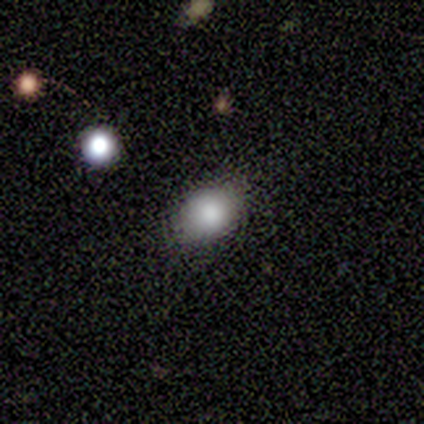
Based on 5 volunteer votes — A smooth galaxy with no disk features (80%) that is round (50%, tied with in between).

Vote fractions:
- Smooth or featured? smooth: 80% / star or artifact: 20% / featured or disk: 0%
- How rounded? round: 50% (tied) / in between: 50% (tied) / cigar-shaped: 0%
- Merging? none: 100% / minor disturbance: 0% / major disturbance: 0% / merger: 0%